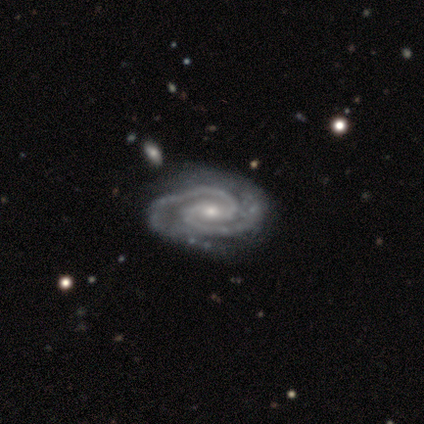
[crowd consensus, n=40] A featured or disk galaxy (98%) with a weak bar (49%), 2 (100%) tight (73%) spiral arms (100%) and a small central bulge (51%).

Vote fractions:
- Smooth or featured? featured or disk: 98% / star or artifact: 2% / smooth: 0%
- Edge-on disk? no: 95% / yes: 5%
- Bar? weak: 49% / strong: 32% / no: 19%
- Spiral arms? yes: 100% / no: 0%
- Spiral winding? tight: 73% / medium: 27% / loose: 0%
- Spiral arm count? 2: 100% / 1: 0% / 3: 0% / 4: 0% / more than 4: 0% / can't tell: 0%
- Bulge size? small: 51% / moderate: 43% / large: 3% / none: 3% / dominant: 0%
- Merging? none: 49% / minor disturbance: 10% / major disturbance: 5% / merger: 3%